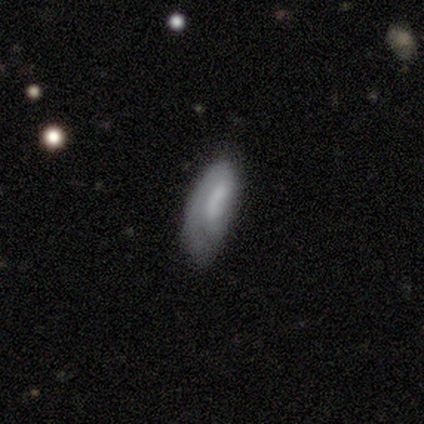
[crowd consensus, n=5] smooth-or-featured: smooth: 80% | featured or disk: 20% | star or artifact: 0%
  how-rounded: in between: 75% | cigar-shaped: 25% | round: 0%
  merging: none: 80% | minor disturbance: 20% | major disturbance: 0% | merger: 0%